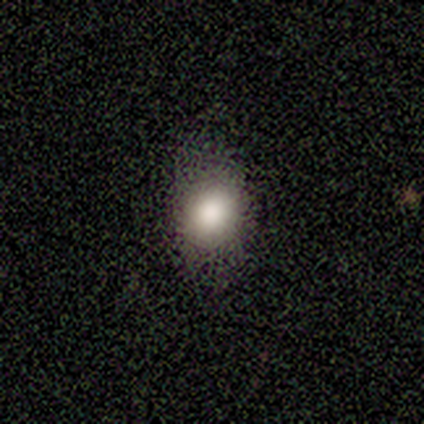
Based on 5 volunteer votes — This appears to be a smooth galaxy with no disk features (80%) that is round (75%). Merging: none (100%).